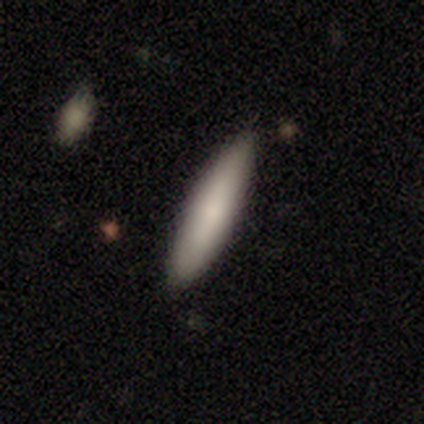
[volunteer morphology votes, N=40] Smooth or featured? 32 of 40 (80%) said smooth. How rounded? 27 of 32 (84%) said cigar-shaped. Merging? 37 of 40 (92%) said none.